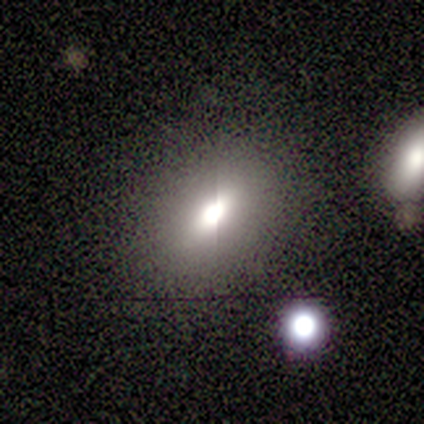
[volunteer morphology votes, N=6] smooth-or-featured: star or artifact: 67% | smooth: 17% | featured or disk: 17%